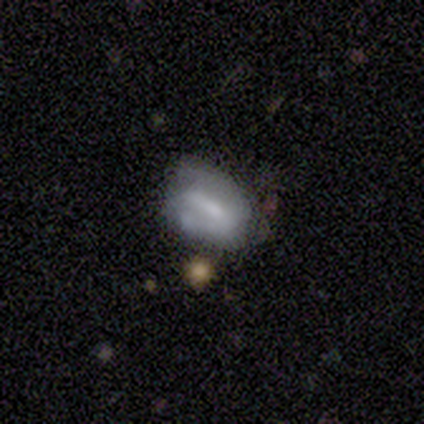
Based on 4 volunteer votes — Morphology: type=featured or disk (75%); edge-on=no (100%); bar=strong (67%); spiral arms=yes (67%); winding=tight (50%, tied with medium); arm count=2 (100%); bulge=small (67%); merging=none (50%, tied with major disturbance).